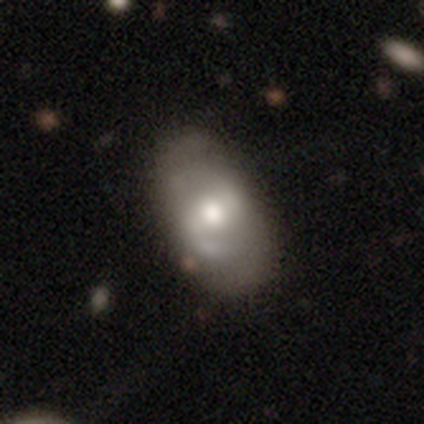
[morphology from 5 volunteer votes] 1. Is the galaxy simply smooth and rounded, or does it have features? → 60% featured or disk, 40% smooth, 0% star or artifact.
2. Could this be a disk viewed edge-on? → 100% no, 0% yes.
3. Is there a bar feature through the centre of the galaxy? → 67% weak, 33% no, 0% strong.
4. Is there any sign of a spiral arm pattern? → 67% yes, 33% no.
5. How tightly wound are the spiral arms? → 100% loose, 0% tight, 0% medium.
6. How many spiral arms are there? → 100% 2, 0% 1, 0% 3, 0% 4, 0% more than 4, 0% can't tell.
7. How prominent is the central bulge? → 100% moderate, 0% dominant, 0% large, 0% small, 0% none.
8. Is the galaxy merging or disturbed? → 60% none, 40% minor disturbance, 0% major disturbance, 0% merger.